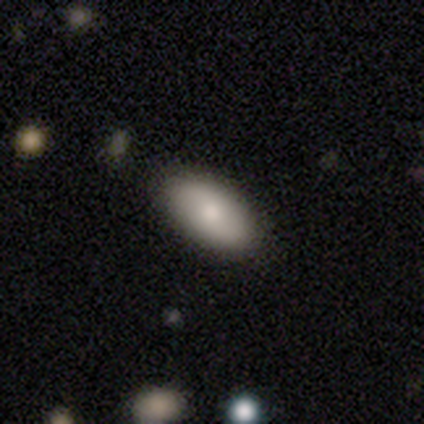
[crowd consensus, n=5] This is likely a smooth galaxy (60%). How rounded: clearly in between (100%). Merging: clearly none (100%).